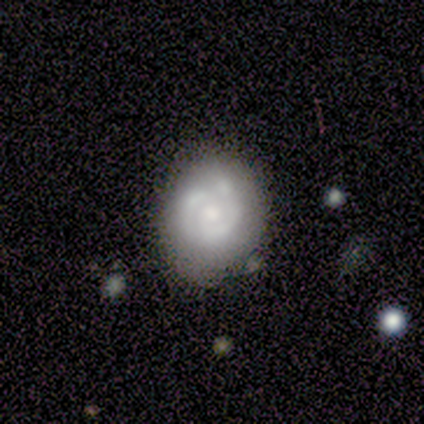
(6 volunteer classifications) Smooth or featured: featured or disk — 100%
Edge-on disk: no — 100%
Bar: no — 67% (strong — 17%)
Spiral arms: yes — 67% (no — 33%)
Spiral winding: tight — 50% (tied with medium — 50%)
Spiral arm count: 2 — 75% (1 — 25%)
Bulge size: moderate — 67% (large — 17%)
Merging: none — 67% (minor disturbance — 33%)